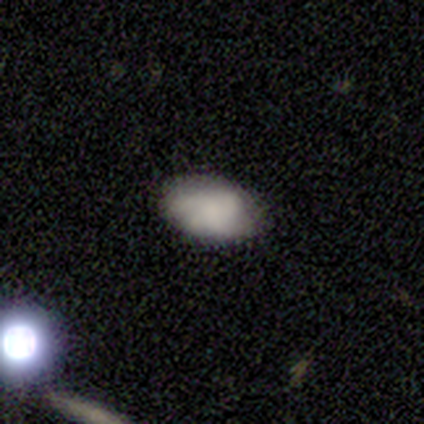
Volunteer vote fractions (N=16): Overall: smooth (69%). How rounded: in between (91%). Merging: none (100%).